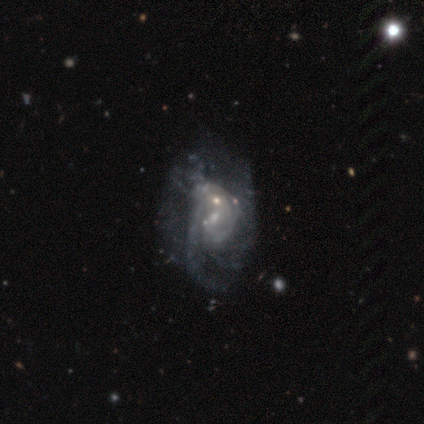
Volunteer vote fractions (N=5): smooth-or-featured: featured or disk: 80% | smooth: 20% | star or artifact: 0%
  disk-edge-on: no: 100% | yes: 0%
    bar: weak: 75% | no: 25% | strong: 0%
    has-spiral-arms: yes: 75% | no: 25%
      spiral-winding: tight: 33% (tied) | medium: 33% (tied) | loose: 33% (tied)
      spiral-arm-count: 2: 67% | 1: 33% | 3: 0% | 4: 0% | more than 4: 0% | can't tell: 0%
    bulge-size: small: 75% | large: 25% | dominant: 0% | moderate: 0% | none: 0%
  merging: minor disturbance: 40% (tied) | merger: 40% (tied) | major disturbance: 20% | none: 0%